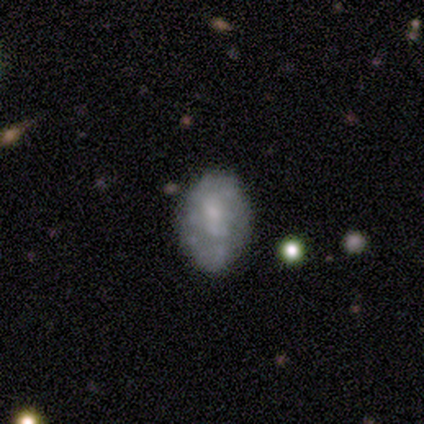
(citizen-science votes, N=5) This appears to be a featured or disk galaxy (60%) with a strong bar (33%, tied with weak and no), no spiral arms (67%) and a moderate central bulge (67%). Merging: none (80%).